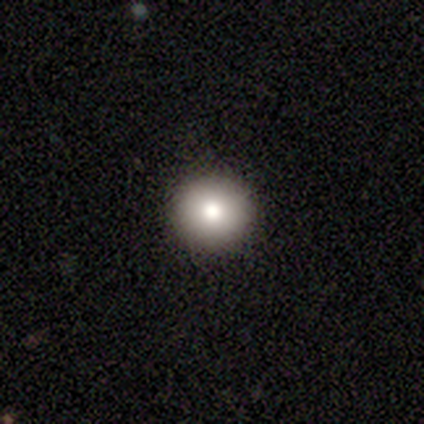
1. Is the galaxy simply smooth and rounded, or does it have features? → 76% smooth, 16% featured or disk, 8% star or artifact.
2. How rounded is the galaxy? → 96% round, 4% in between, 0% cigar-shaped.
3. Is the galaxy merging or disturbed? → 100% none, 0% minor disturbance, 0% major disturbance, 0% merger.